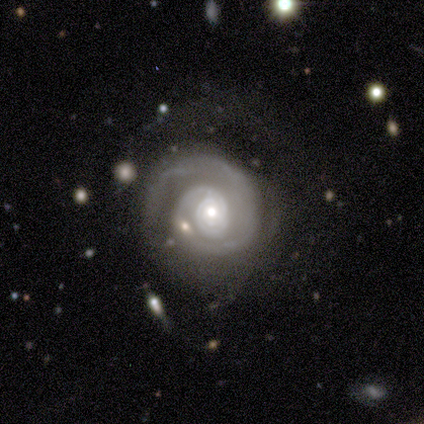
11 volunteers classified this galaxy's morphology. smooth-or-featured: featured or disk: 91% | smooth: 9% | star or artifact: 0%
  disk-edge-on: no: 100% | yes: 0%
    bar: no: 80% | strong: 10% | weak: 10%
    has-spiral-arms: yes: 80% | no: 20%
      spiral-winding: tight: 50% | medium: 38% | loose: 12%
      spiral-arm-count: 1: 50% | 2: 25% | 3: 12% | can't tell: 12% | 4: 0% | more than 4: 0%
    bulge-size: small: 60% | moderate: 30% | large: 10% | dominant: 0% | none: 0%
  merging: none: 45% | minor disturbance: 27% | major disturbance: 27% | merger: 0%